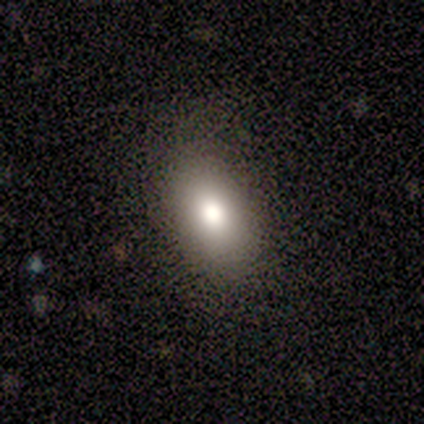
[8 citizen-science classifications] Q: Smooth or featured?
A: smooth (75%); runner-up: featured or disk (12%)
Q: How rounded?
A: in between (83%); runner-up: cigar-shaped (17%)
Q: Merging?
A: none (100%)